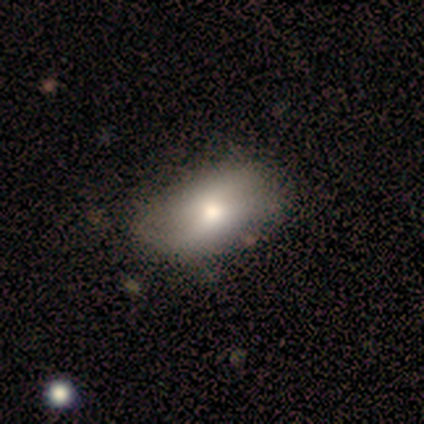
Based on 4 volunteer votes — smooth-or-featured: featured or disk: 75% | smooth: 25% | star or artifact: 0%
  disk-edge-on: no: 100% | yes: 0%
    bar: no: 100% | strong: 0% | weak: 0%
    has-spiral-arms: no: 67% | yes: 33%
    bulge-size: moderate: 100% | dominant: 0% | large: 0% | small: 0% | none: 0%
  merging: none: 50% | minor disturbance: 25% | merger: 25% | major disturbance: 0%